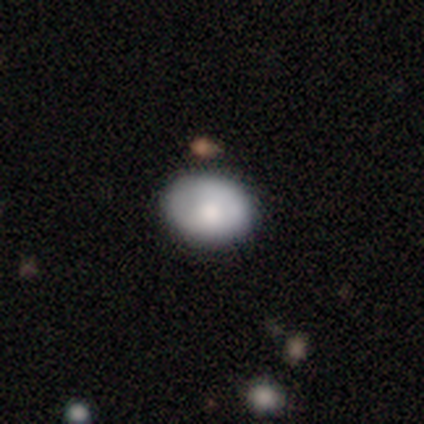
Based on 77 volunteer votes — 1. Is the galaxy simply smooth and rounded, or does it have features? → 84% smooth, 14% featured or disk, 1% star or artifact.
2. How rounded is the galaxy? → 57% in between, 42% round, 2% cigar-shaped.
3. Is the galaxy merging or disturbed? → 43% none, 5% minor disturbance, 4% merger, 1% major disturbance.